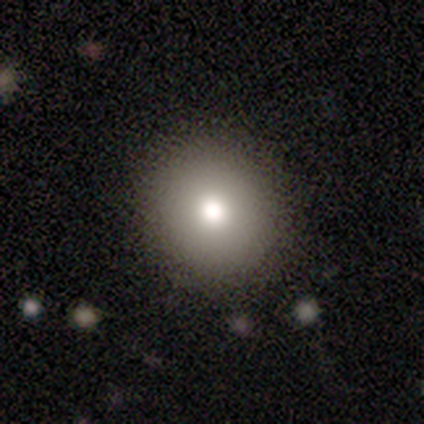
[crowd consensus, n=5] smooth_or_featured: smooth (p=0.60) [alt: featured or disk p=0.20]
how_rounded: round (p=0.67) [alt: in between p=0.33]
merging: none (p=1.00)